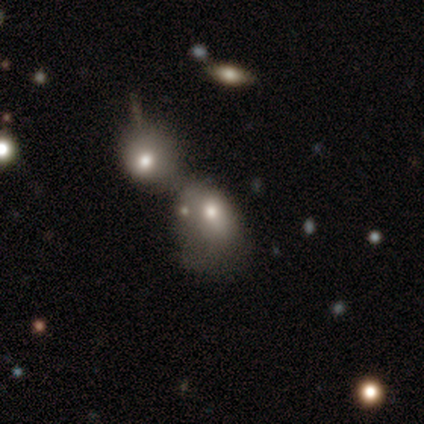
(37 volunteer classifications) smooth 57%, featured or disk 35%, star or artifact 8%. Down the decision tree: how rounded — in between (86%); merging — merger (82%).